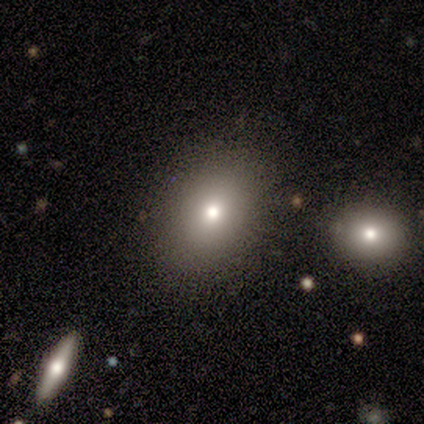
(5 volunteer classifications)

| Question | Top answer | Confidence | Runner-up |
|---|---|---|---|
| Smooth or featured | smooth | 80% | star or artifact (20%) |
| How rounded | round | 50% | tied: in between (50%) |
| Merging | minor disturbance | 50% | none (25%) |